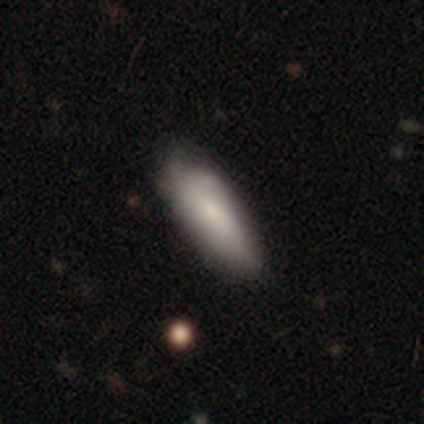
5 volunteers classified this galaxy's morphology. smooth_or_featured: smooth (p=0.60) [alt: featured or disk p=0.40]
how_rounded: in between (p=0.67) [alt: cigar-shaped p=0.33]
merging: minor disturbance (p=0.80) [alt: none p=0.20]